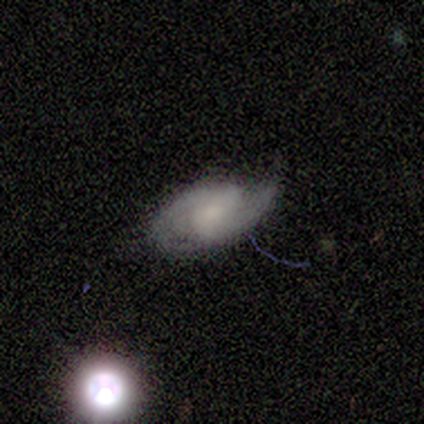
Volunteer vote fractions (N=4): A featured or disk galaxy (100%) with no bar (75%), 2 (67%) tight (33%, tied with medium and loose) spiral arms (75%) and a small central bulge (50%, tied with none).

Vote fractions:
- Smooth or featured? featured or disk: 100% / smooth: 0% / star or artifact: 0%
- Edge-on disk? no: 100% / yes: 0%
- Bar? no: 75% / weak: 25% / strong: 0%
- Spiral arms? yes: 75% / no: 25%
- Spiral winding? tight: 33% (tied) / medium: 33% (tied) / loose: 33% (tied)
- Spiral arm count? 2: 67% / 1: 33% / 3: 0% / 4: 0% / more than 4: 0% / can't tell: 0%
- Bulge size? small: 50% (tied) / none: 50% (tied) / dominant: 0% / large: 0% / moderate: 0%
- Merging? none: 50% (tied) / minor disturbance: 50% (tied) / major disturbance: 0% / merger: 0%